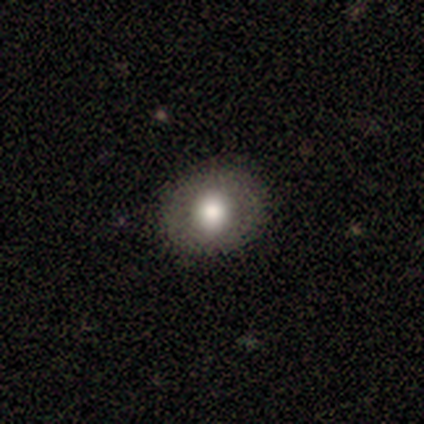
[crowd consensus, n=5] Overall: smooth (80%). How rounded: round (75%). Merging: none (100%).